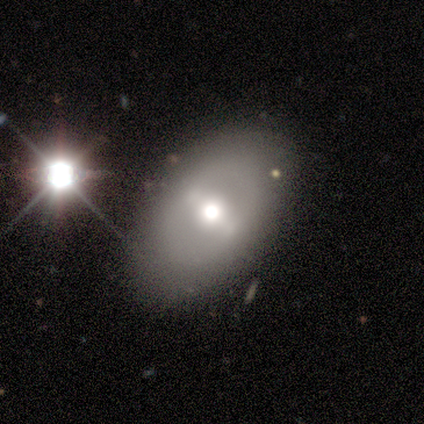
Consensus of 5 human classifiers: This appears to be a smooth galaxy with no disk features (60%) that is in between round and cigar-shaped (67%). Merging: none (80%).